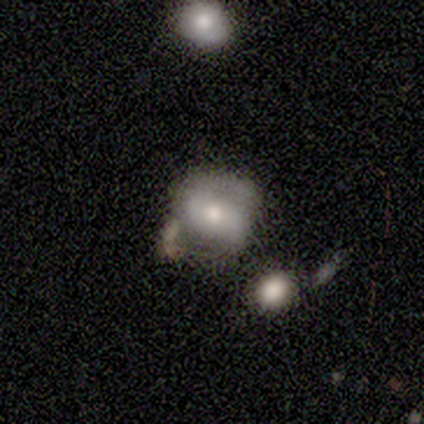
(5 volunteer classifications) Smooth or featured: featured or disk — 80% (star or artifact — 20%)
Edge-on disk: no — 100%
Bar: weak — 50% (tied with no — 50%)
Spiral arms: yes — 50% (tied with no — 50%)
Spiral winding: tight — 100%
Spiral arm count: 2 — 50% (tied with can't tell — 50%)
Bulge size: moderate — 50% (tied with small — 50%)
Merging: minor disturbance — 50% (none — 25%)